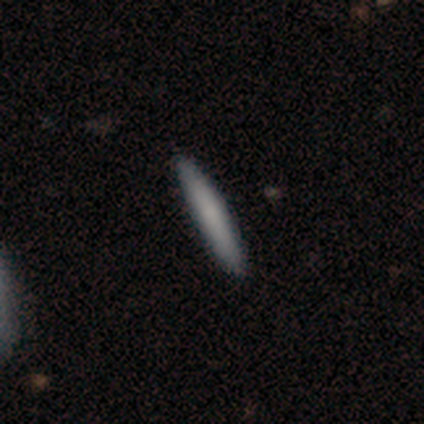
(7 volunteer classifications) Smooth or featured? smooth (100%)
How rounded? cigar-shaped (100%)
Merging? none (86%)